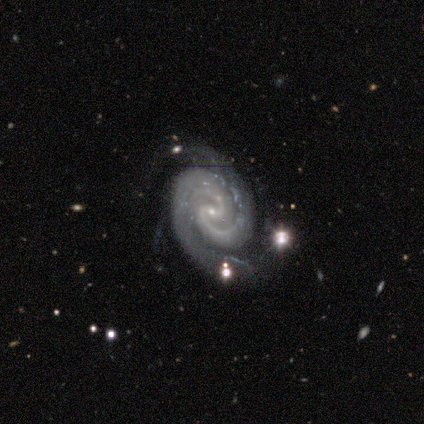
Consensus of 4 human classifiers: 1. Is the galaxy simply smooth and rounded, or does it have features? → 100% featured or disk, 0% smooth, 0% star or artifact.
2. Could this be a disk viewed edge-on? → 100% no, 0% yes.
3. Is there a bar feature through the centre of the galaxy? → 75% weak, 25% strong, 0% no.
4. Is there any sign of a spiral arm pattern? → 100% yes, 0% no.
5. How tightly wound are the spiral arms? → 50% tight (tied), 50% medium (tied), 0% loose.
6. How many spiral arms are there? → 75% 2, 25% 3, 0% 1, 0% 4, 0% more than 4, 0% can't tell.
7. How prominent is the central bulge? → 75% small, 25% none, 0% dominant, 0% large, 0% moderate.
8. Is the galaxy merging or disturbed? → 25% none (tied), 25% minor disturbance (tied), 25% major disturbance (tied), 25% merger (tied).